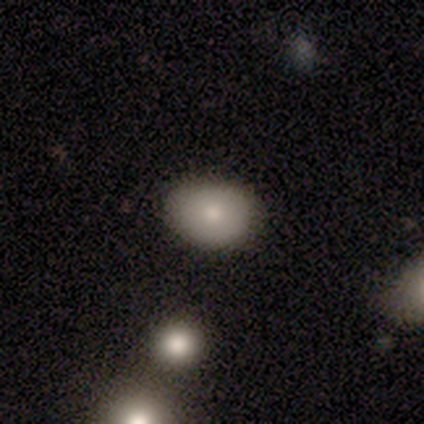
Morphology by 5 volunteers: Smooth or featured? star or artifact (60%)